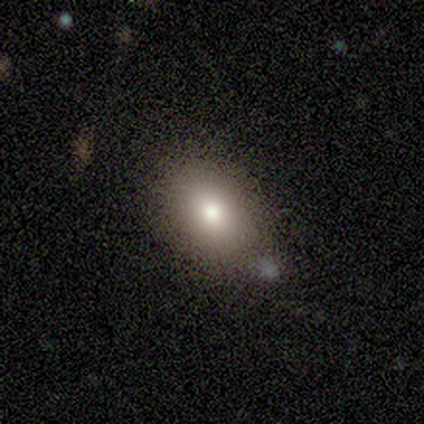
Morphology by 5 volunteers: A smooth galaxy with no disk features (80%) that is in between round and cigar-shaped (100%).

Vote fractions:
- Smooth or featured? smooth: 80% / star or artifact: 20% / featured or disk: 0%
- How rounded? in between: 100% / round: 0% / cigar-shaped: 0%
- Merging? none: 50% / minor disturbance: 25% / merger: 25% / major disturbance: 0%